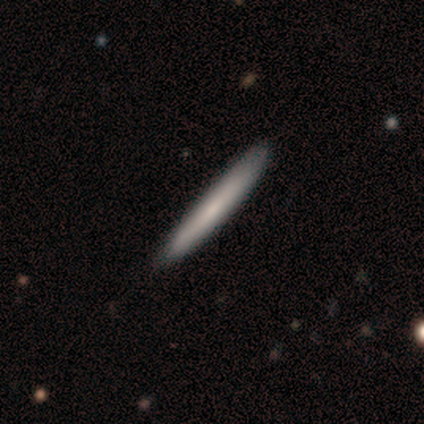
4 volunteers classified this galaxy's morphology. type=smooth (100%); roundness=cigar-shaped (75%); merging=none (75%).